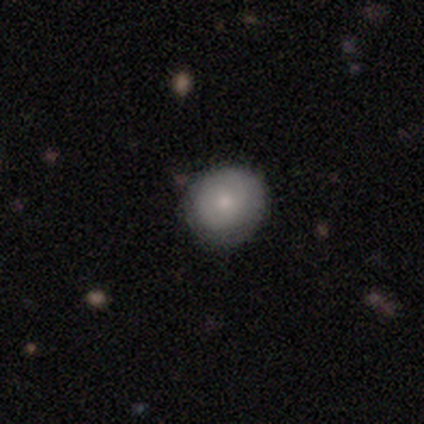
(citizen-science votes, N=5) Smooth or featured?
  - smooth: 80% *
  - featured or disk: 20%
  - star or artifact: 0%
How rounded?
  - round: 100% *
  - in between: 0%
  - cigar-shaped: 0%
Merging?
  - none: 80% *
  - minor disturbance: 20%
  - major disturbance: 0%
  - merger: 0%